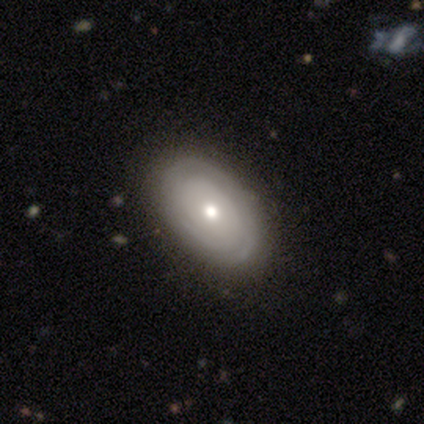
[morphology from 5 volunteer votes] smooth-or-featured: featured or disk: 80% | smooth: 20% | star or artifact: 0%
  disk-edge-on: no: 100% | yes: 0%
    bar: no: 100% | strong: 0% | weak: 0%
    has-spiral-arms: yes: 75% | no: 25%
      spiral-winding: tight: 67% | medium: 33% | loose: 0%
      spiral-arm-count: 1: 33% (tied) | 2: 33% (tied) | 3: 33% (tied) | 4: 0% | more than 4: 0% | can't tell: 0%
    bulge-size: moderate: 75% | large: 25% | dominant: 0% | small: 0% | none: 0%
  merging: none: 40% (tied) | minor disturbance: 40% (tied) | major disturbance: 20% | merger: 0%